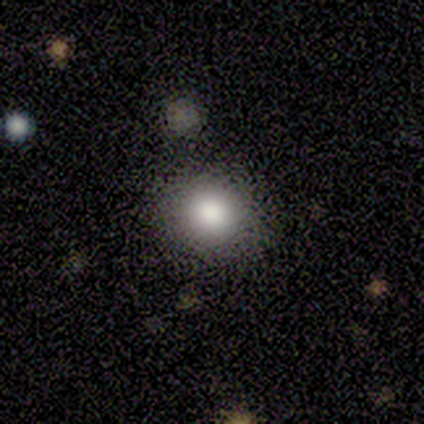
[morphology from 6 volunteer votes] smooth 100%, featured or disk 0%, star or artifact 0%. Down the decision tree: how rounded — round (83%); merging — none (83%).